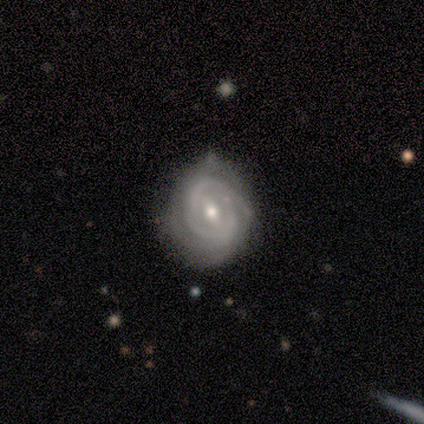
Volunteers were most divided on "bulge size": moderate: 44%, small: 41%, large: 6%, none: 6%, dominant: 3%. Remaining: edge-on disk — no (100%); smooth or featured — featured or disk (89%); spiral arms — yes (88%); spiral winding — tight (73%); merging — none (70%); bar — weak (53%); spiral arm count — can't tell (43%).